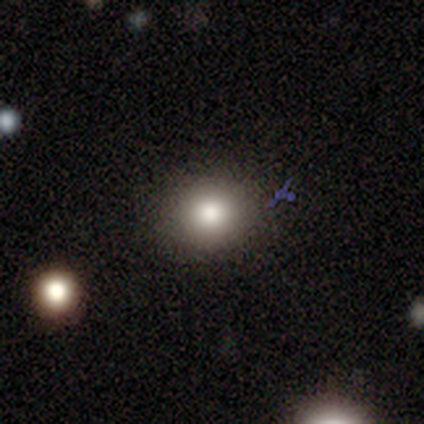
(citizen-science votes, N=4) Smooth or featured: smooth — 75% (star or artifact — 25%)
How rounded: round — 67% (in between — 33%)
Merging: none — 100%